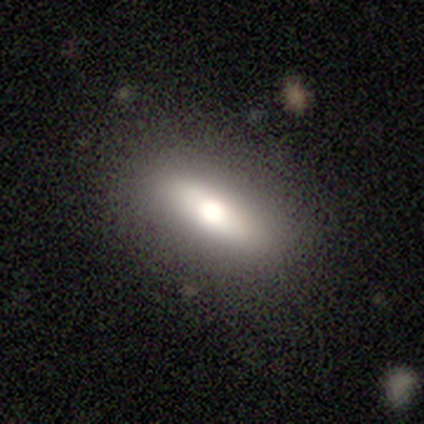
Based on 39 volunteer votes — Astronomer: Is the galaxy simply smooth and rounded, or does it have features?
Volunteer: smooth — 56% (runner-up: featured or disk, 36%).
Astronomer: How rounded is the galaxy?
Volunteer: in between — 55% (runner-up: cigar-shaped, 36%).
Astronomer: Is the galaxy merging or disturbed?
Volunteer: none — 92%.